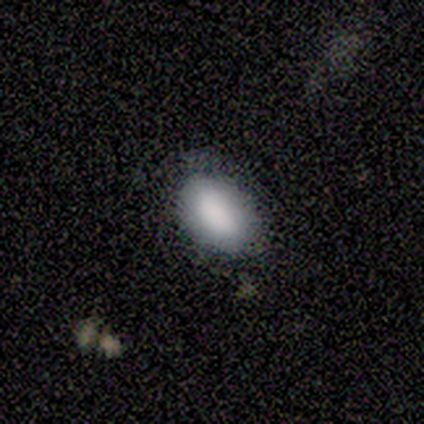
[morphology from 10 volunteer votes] Smooth or featured? 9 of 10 (90%) said smooth. How rounded? 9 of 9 (100%) said in between. Merging? 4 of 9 (44%, tied with minor disturbance) said none.